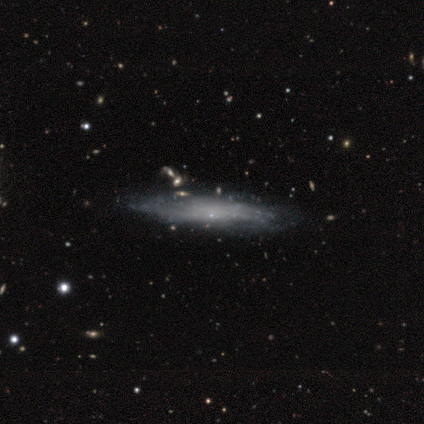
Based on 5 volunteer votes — A featured or disk galaxy (60%) viewed edge-on (67%) with no central bulge (100%).

Vote fractions:
- Smooth or featured? featured or disk: 60% / smooth: 40% / star or artifact: 0%
- Edge-on disk? yes: 67% / no: 33%
- Edge-on bulge? none: 100% / boxy: 0% / rounded: 0%
- Merging? none: 60% / minor disturbance: 20% / major disturbance: 20% / merger: 0%